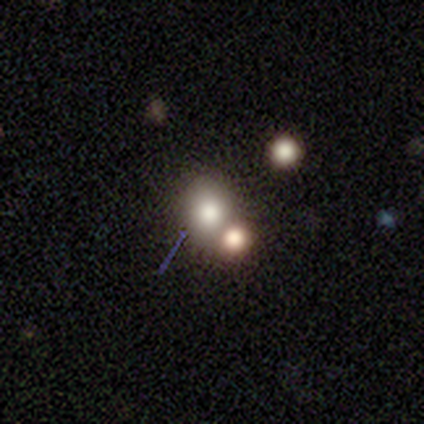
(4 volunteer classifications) Morphology: type=smooth (75%); roundness=in between (67%); merging=none (67%).